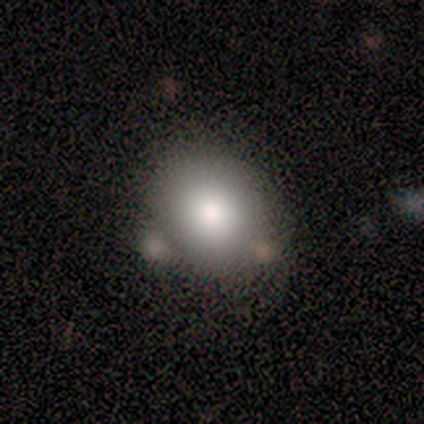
Smooth or featured? smooth (83%)
How rounded? round (60%)
Merging? none (67%)